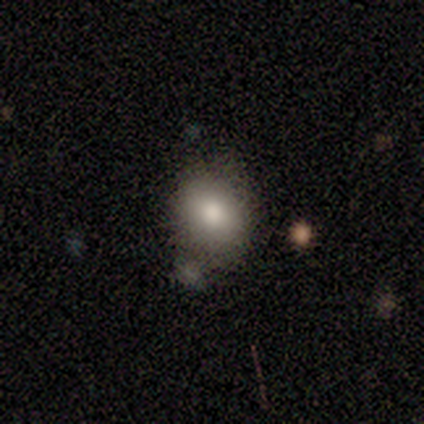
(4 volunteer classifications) Volunteers were most divided on "how rounded": in between: 67%, round: 33%, cigar-shaped: 0%. More confident: merging — none (100%); smooth or featured — smooth (75%).